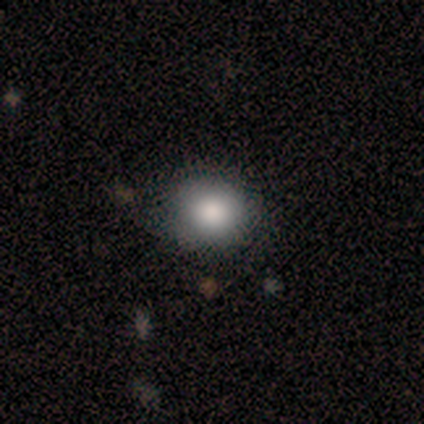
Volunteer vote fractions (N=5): Smooth or featured? 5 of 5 (100%) said smooth. How rounded? 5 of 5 (100%) said round. Merging? 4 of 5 (80%) said none.